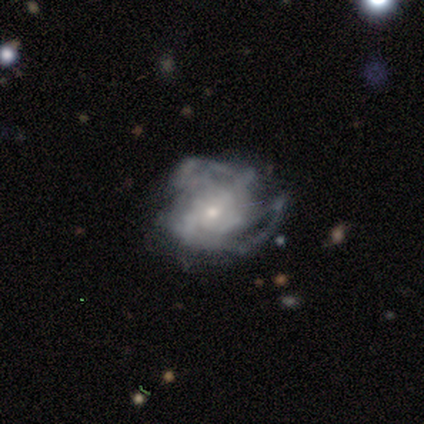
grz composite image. It shows a featured or disk galaxy (60%) with no bar (67%), no spiral arms (67%) and a small central bulge (100%). Merging: major disturbance (60%).